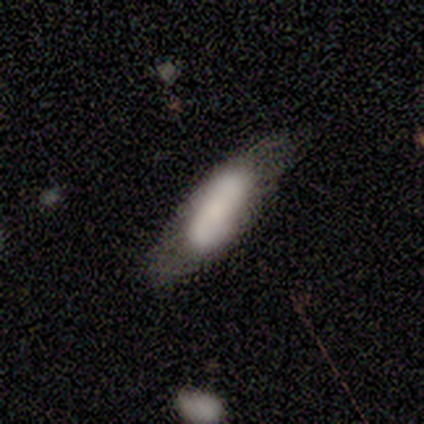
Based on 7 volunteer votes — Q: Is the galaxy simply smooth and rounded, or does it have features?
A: smooth — 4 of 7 (57%).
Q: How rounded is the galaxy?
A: in between — 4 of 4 (100%).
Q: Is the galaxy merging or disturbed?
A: none — 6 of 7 (86%).